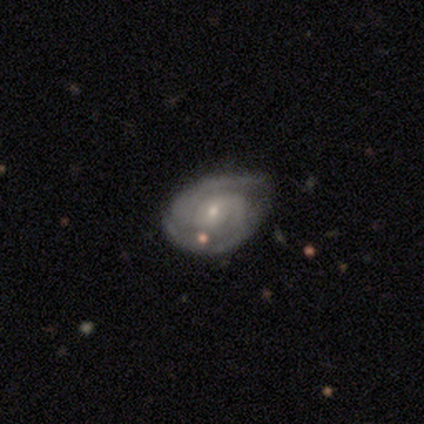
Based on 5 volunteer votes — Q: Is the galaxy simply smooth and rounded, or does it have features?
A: featured or disk — 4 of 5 (80%).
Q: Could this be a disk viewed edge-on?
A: no — 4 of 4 (100%).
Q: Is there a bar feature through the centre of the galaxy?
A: no — 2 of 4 (50%).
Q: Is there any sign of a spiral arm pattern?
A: yes — 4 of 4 (100%).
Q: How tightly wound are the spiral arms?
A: medium — 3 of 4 (75%).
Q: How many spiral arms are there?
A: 2 — 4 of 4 (100%).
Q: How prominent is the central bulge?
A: moderate — 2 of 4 (50%, tied with small).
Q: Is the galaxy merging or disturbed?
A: none — 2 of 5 (40%, tied with minor disturbance).